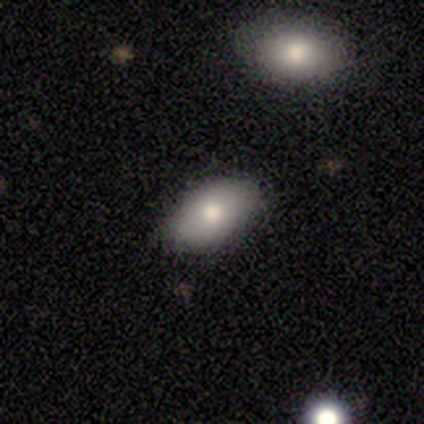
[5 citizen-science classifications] This is clearly a smooth galaxy (100%). How rounded: clearly in between (80%). Merging: clearly none (80%).